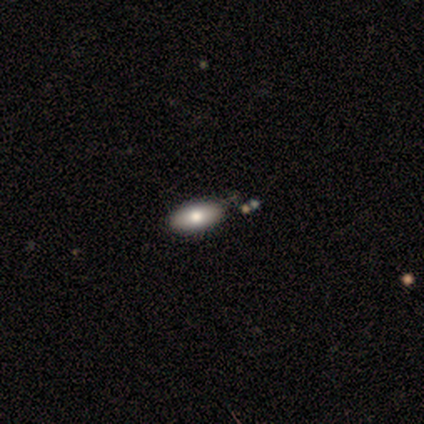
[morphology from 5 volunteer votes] Smooth or featured? 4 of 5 (80%) said smooth. How rounded? 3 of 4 (75%) said in between. Merging? 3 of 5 (60%) said none.